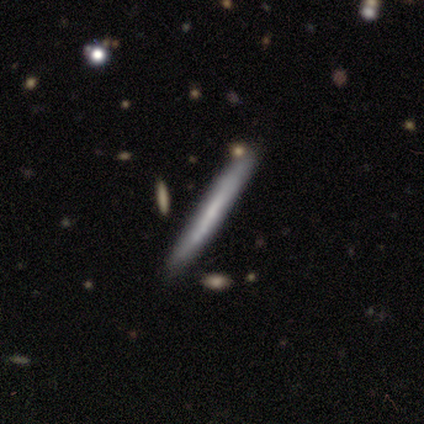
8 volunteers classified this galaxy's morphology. Overall: featured or disk (62%; star or artifact 25%). Edge-on disk: yes (100%). Edge-on bulge: none (60%; boxy 20%). Merging: none (67%; minor disturbance 33%).